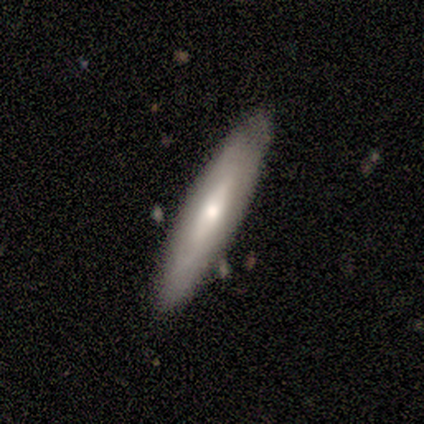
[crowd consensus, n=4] A smooth galaxy with no disk features (100%) that is in between round and cigar-shaped (75%). Merging: none (100%).